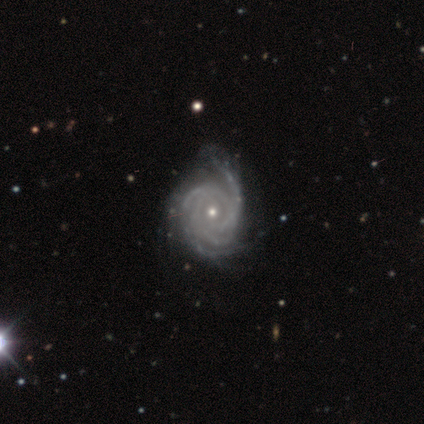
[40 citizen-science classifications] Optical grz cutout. It shows a featured or disk galaxy (95%) with no bar (86%), 4 (51%) tight (84%) spiral arms (100%) and a small central bulge (65%). Merging: none (54%).